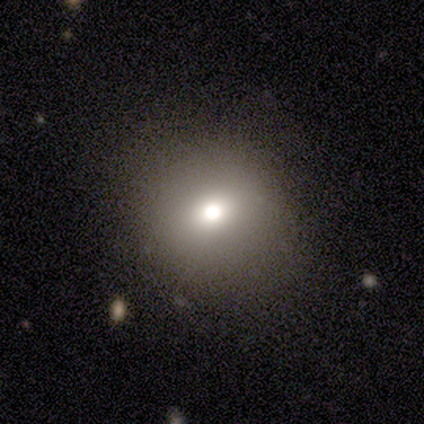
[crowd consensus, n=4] smooth-or-featured: smooth: 75% | star or artifact: 25% | featured or disk: 0%
  how-rounded: round: 100% | in between: 0% | cigar-shaped: 0%
  merging: none: 100% | minor disturbance: 0% | major disturbance: 0% | merger: 0%